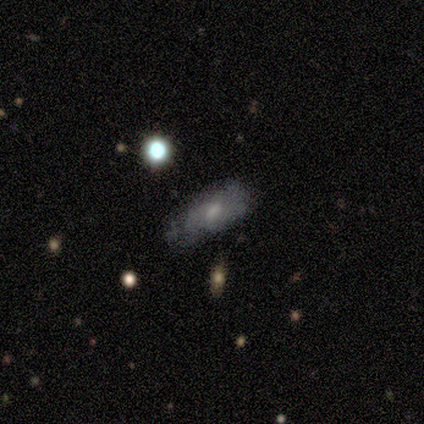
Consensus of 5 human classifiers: Q: Smooth or featured?
A: featured or disk (60%); runner-up: smooth (40%)
Q: Edge-on disk?
A: yes (67%); runner-up: no (33%)
Q: Edge-on bulge?
A: none (50%); tied with: rounded (50%)
Q: Merging?
A: none (80%); runner-up: major disturbance (20%)